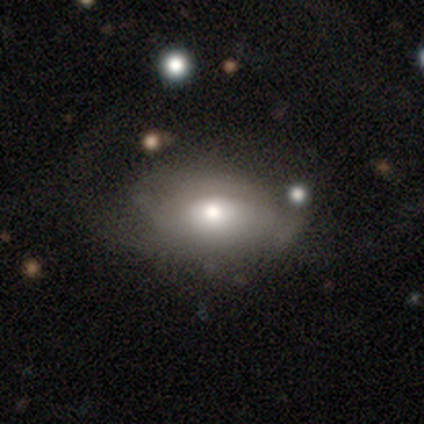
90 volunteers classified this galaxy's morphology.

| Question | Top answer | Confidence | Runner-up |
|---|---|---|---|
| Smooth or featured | smooth | 57% | featured or disk (37%) |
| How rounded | in between | 88% | round (10%) |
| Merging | none | 44% | minor disturbance (27%) |